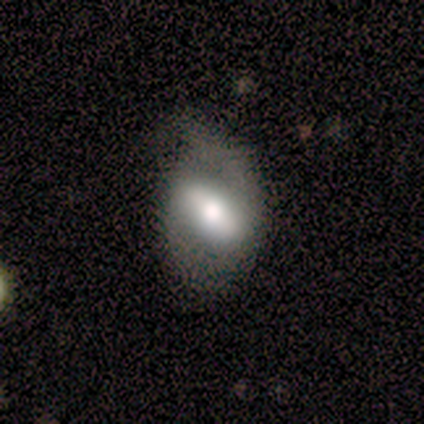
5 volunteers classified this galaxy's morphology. smooth-or-featured: featured or disk: 80% | smooth: 20% | star or artifact: 0%
  disk-edge-on: no: 100% | yes: 0%
    bar: strong: 75% | weak: 25% | no: 0%
    has-spiral-arms: yes: 50% (tied) | no: 50% (tied)
      spiral-winding: medium: 50% (tied) | loose: 50% (tied) | tight: 0%
      spiral-arm-count: 1: 50% (tied) | 2: 50% (tied) | 3: 0% | 4: 0% | more than 4: 0% | can't tell: 0%
    bulge-size: dominant: 25% (tied) | large: 25% (tied) | moderate: 25% (tied) | small: 25% (tied) | none: 0%
  merging: none: 40% (tied) | minor disturbance: 40% (tied) | major disturbance: 20% | merger: 0%